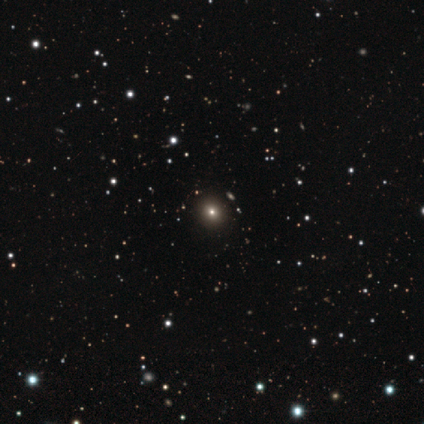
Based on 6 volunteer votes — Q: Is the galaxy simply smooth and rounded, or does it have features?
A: smooth — 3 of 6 (50%).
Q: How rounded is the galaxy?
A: round — 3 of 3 (100%).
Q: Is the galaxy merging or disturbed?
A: none — 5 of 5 (100%).